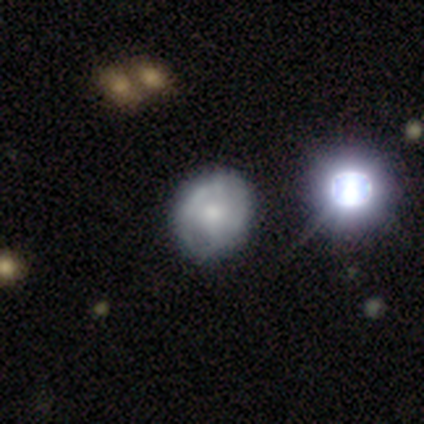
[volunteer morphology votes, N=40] Smooth or featured?
  - featured or disk: 55% *
  - smooth: 32%
  - star or artifact: 12%
Edge-on disk?
  - no: 95% *
  - yes: 5%
Bar?
  - no: 81% *
  - weak: 14%
  - strong: 5%
Spiral arms?
  - no: 67% *
  - yes: 33%
Bulge size?
  - moderate: 48% *
  - small: 43%
  - large: 5%
  - none: 5%
  - dominant: 0%
Merging?
  - none: 49% *
  - minor disturbance: 17%
  - merger: 6%
  - major disturbance: 3%